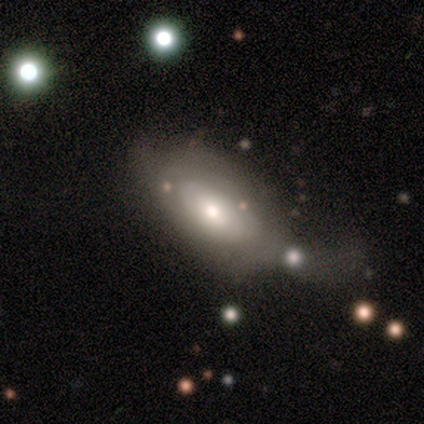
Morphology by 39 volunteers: smooth_or_featured: featured or disk (p=0.56) [alt: smooth p=0.36]
disk_edge_on: no (p=0.95) [alt: yes p=0.05]
bar: no (p=0.81) [alt: weak p=0.14]
has_spiral_arms: no (p=0.52) [alt: yes p=0.48]
bulge_size: moderate (p=0.81) [alt: large p=0.14]
merging: major disturbance (p=0.33) [alt: none p=0.25]